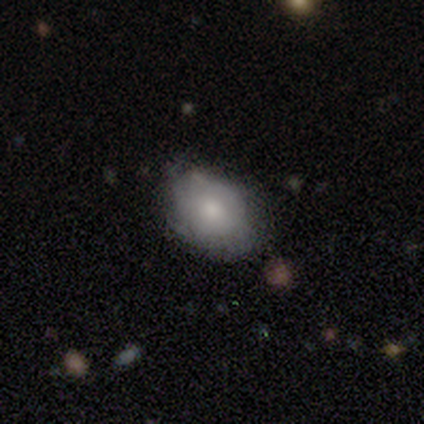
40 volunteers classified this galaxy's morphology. Smooth or featured? 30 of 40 (75%) said smooth. How rounded? 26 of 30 (87%) said in between. Merging? 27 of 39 (69%) said none.